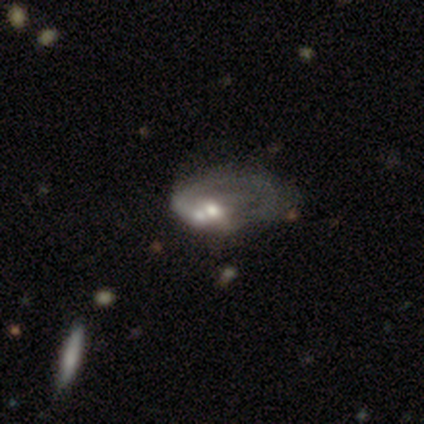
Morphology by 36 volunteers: Smooth or featured?
  - featured or disk: 69% *
  - smooth: 22%
  - star or artifact: 8%
Edge-on disk?
  - no: 96% *
  - yes: 4%
Bar?
  - no: 88% *
  - weak: 8%
  - strong: 4%
Spiral arms?
  - no: 83% *
  - yes: 17%
Bulge size?
  - moderate: 58% *
  - large: 17%
  - none: 17%
  - small: 8%
  - dominant: 0%
Merging?
  - merger: 30% *
  - none: 18%
  - major disturbance: 12%
  - minor disturbance: 9%